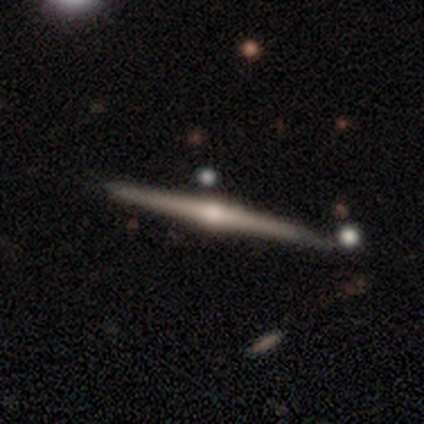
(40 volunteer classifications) Smooth or featured? 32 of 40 (80%) said featured or disk. Edge-on disk? 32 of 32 (100%) said yes. Edge-on bulge? 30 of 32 (94%) said rounded. Merging? 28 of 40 (70%) said none.